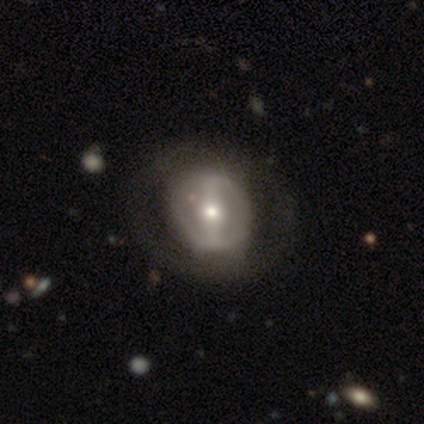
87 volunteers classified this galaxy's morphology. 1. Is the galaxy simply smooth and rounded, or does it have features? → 63% featured or disk, 31% smooth, 6% star or artifact.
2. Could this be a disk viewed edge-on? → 96% no, 4% yes.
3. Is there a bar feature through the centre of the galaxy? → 58% strong, 21% weak, 21% no.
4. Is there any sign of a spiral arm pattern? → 70% no, 30% yes.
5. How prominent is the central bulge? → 49% moderate, 43% small, 6% large, 2% none, 0% dominant.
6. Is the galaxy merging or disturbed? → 78% none, 11% minor disturbance, 11% major disturbance, 0% merger.